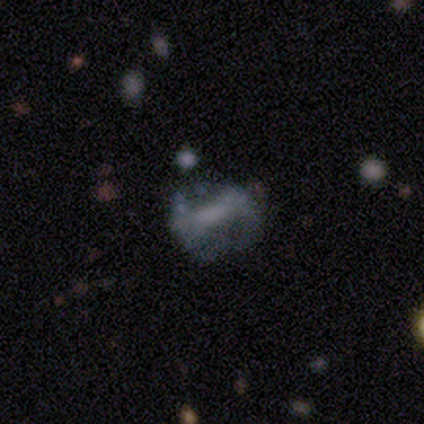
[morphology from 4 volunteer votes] This appears to be a featured or disk galaxy (75%) with a strong bar (33%, tied with weak and no), 2 (50%, tied with can't tell) tight (50%, tied with loose) spiral arms (67%) and a small central bulge (67%). Merging: none (75%).